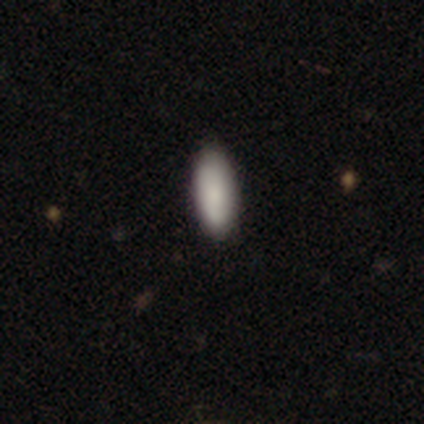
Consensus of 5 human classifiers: Consensus on every question: smooth or featured — smooth (100%); how rounded — in between (100%); merging — none (100%).